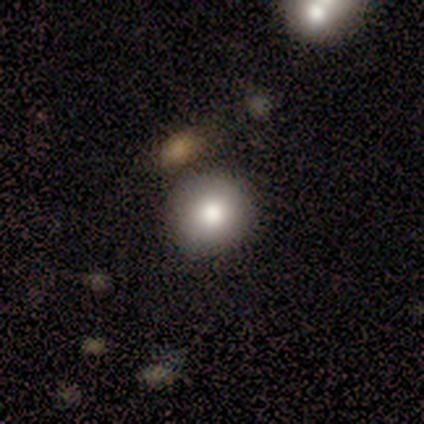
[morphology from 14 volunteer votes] Q: Smooth or featured?
A: smooth (79%); runner-up: featured or disk (14%)
Q: How rounded?
A: round (100%)
Q: Merging?
A: none (85%); runner-up: minor disturbance (8%)